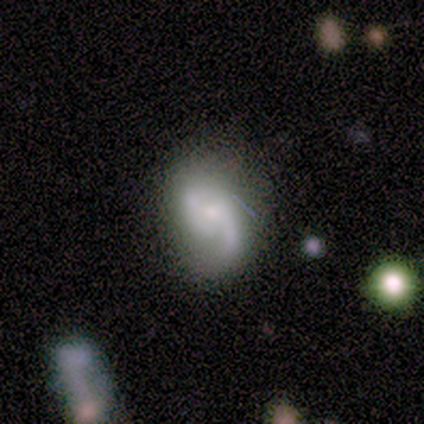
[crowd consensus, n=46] Q: Smooth or featured?
A: featured or disk (80%); runner-up: smooth (17%)
Q: Edge-on disk?
A: no (100%)
Q: Bar?
A: no (59%); runner-up: weak (32%)
Q: Spiral arms?
A: yes (97%); runner-up: no (3%)
Q: Spiral winding?
A: loose (50%); runner-up: medium (33%)
Q: Spiral arm count?
A: 2 (86%); runner-up: 1 (11%)
Q: Bulge size?
A: moderate (54%); runner-up: small (46%)
Q: Merging?
A: none (56%); runner-up: minor disturbance (38%)